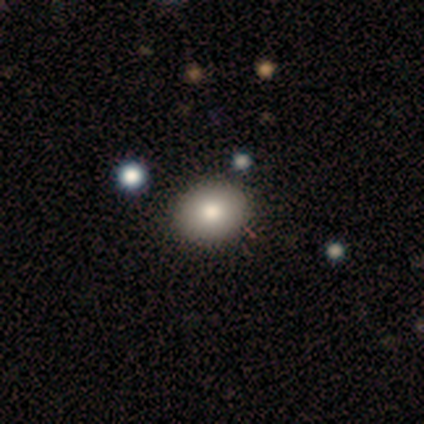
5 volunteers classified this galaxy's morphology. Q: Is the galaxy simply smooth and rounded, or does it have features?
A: smooth — 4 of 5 (80%).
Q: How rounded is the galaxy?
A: round — 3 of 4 (75%).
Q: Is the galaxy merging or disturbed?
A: none — 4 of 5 (80%).